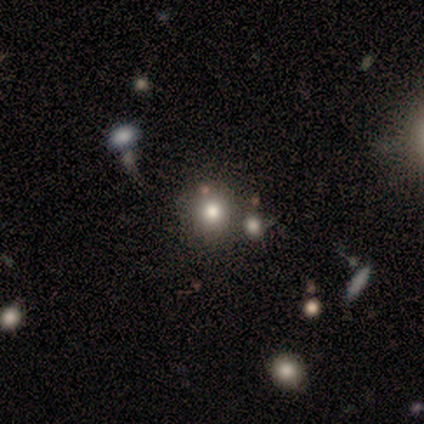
Volunteers were most divided on "smooth or featured": smooth: 60%, star or artifact: 40%, featured or disk: 0%. More confident: how rounded — round (100%); merging — none (100%).